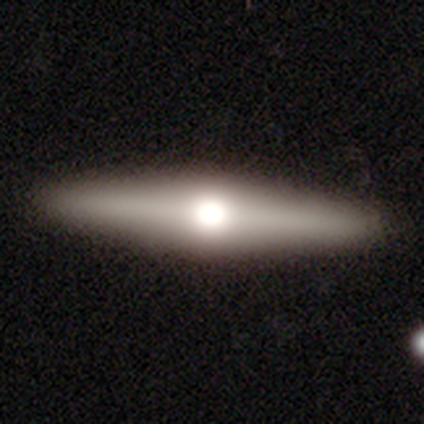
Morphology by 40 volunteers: Smooth or featured? featured or disk (60%)
Edge-on disk? yes (88%)
Edge-on bulge? rounded (100%)
Merging? none (92%)